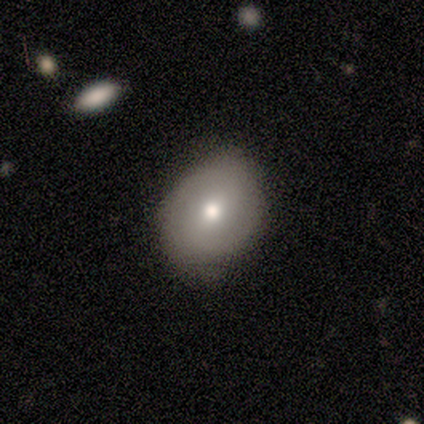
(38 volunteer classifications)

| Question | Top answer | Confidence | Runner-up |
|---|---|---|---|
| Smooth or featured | smooth | 74% | featured or disk (24%) |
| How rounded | in between | 64% | round (36%) |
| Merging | none | 65% | minor disturbance (24%) |